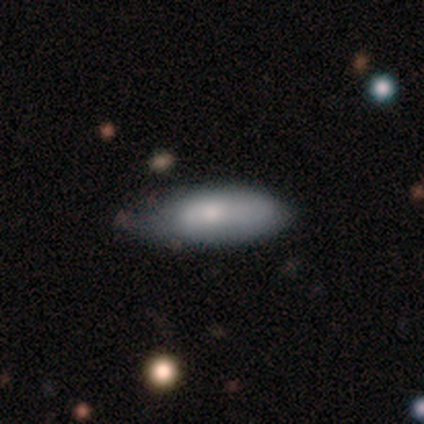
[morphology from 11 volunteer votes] Smooth or featured: smooth — 91% (featured or disk — 9%)
How rounded: in between — 80% (cigar-shaped — 20%)
Merging: none — 55% (minor disturbance — 45%)